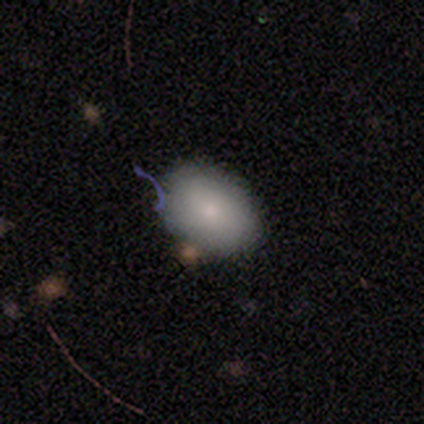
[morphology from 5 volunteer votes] Overall: smooth (80%). How rounded: in between (100%). Merging: none (75%).